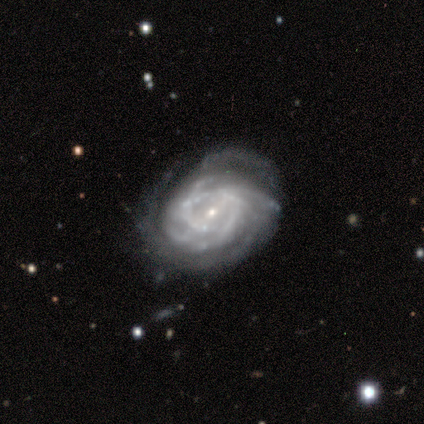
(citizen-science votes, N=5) featured or disk 100%, smooth 0%, star or artifact 0%. Down the decision tree: edge-on disk — no (100%); bar — no (60%); spiral arms — yes (100%); spiral arm count — more than 4 (40%, tied with can't tell); spiral winding — tight (40%, tied with medium); bulge size — small (80%); merging — none (80%).